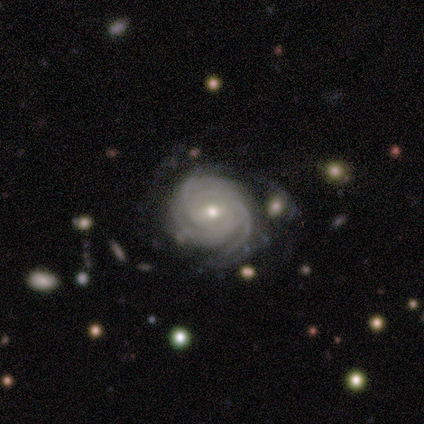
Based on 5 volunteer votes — Smooth or featured? featured or disk (100%)
Edge-on disk? no (100%)
Bar? no (60%)
Spiral arms? yes (100%)
Spiral winding? tight (100%)
Spiral arm count? 3 (80%)
Bulge size? small (100%)
Merging? none (40%, tied with minor disturbance)